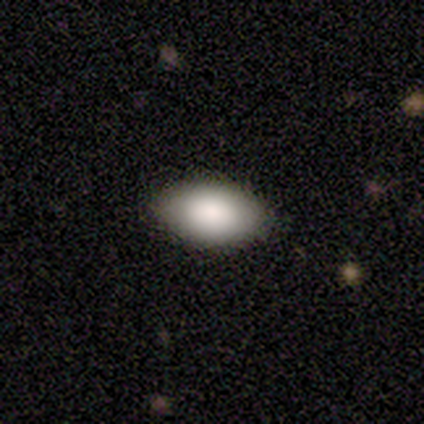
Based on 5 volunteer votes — This appears to be a smooth galaxy with no disk features (80%) that is in between round and cigar-shaped (100%). Merging: none (100%).